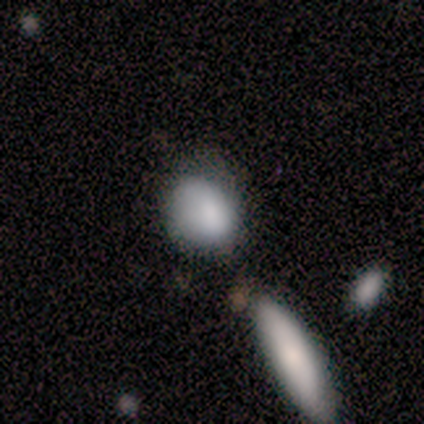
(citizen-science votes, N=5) Smooth or featured: smooth — 100%
How rounded: round — 60% (in between — 40%)
Merging: none — 40% (minor disturbance — 20%)